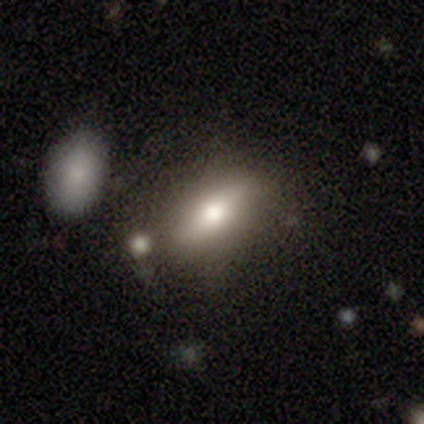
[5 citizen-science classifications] smooth_or_featured: smooth (p=0.80) [alt: featured or disk p=0.20]
how_rounded: in between (p=1.00)
merging: none (p=0.60) [alt: minor disturbance p=0.20]